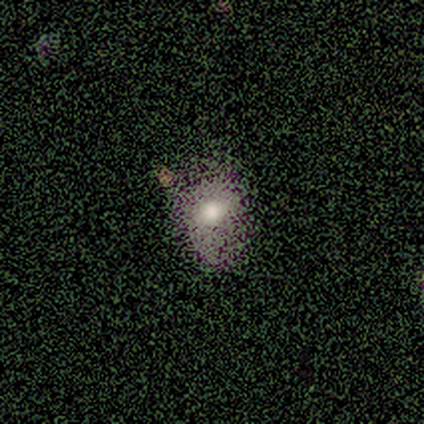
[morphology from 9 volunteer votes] Smooth or featured? 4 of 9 (44%) said star or artifact.